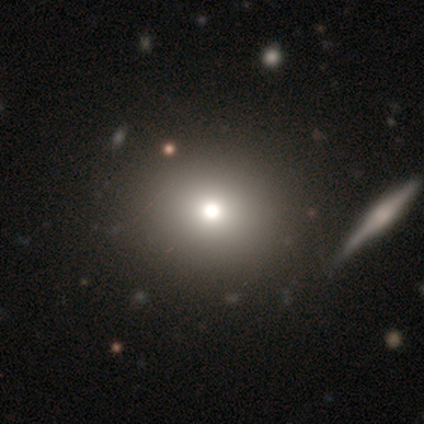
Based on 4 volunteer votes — Smooth or featured: smooth — 75% (featured or disk — 25%)
How rounded: in between — 67% (round — 33%)
Merging: none — 50% (major disturbance — 25%)